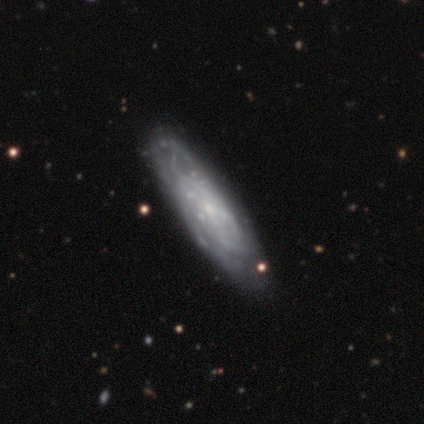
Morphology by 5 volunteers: type=featured or disk (80%); edge-on=no (75%); bar=no (67%); spiral arms=yes (67%); winding=tight (50%, tied with medium); arm count=can't tell (100%); bulge=small (67%); merging=none (60%).